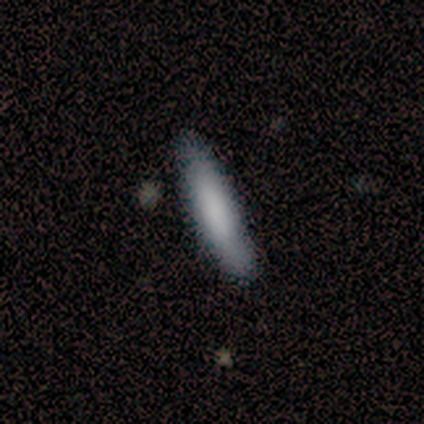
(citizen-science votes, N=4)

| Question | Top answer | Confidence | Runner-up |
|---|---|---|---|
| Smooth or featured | smooth | 75% | featured or disk (25%) |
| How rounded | cigar-shaped | 100% | — |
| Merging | none | 100% | — |